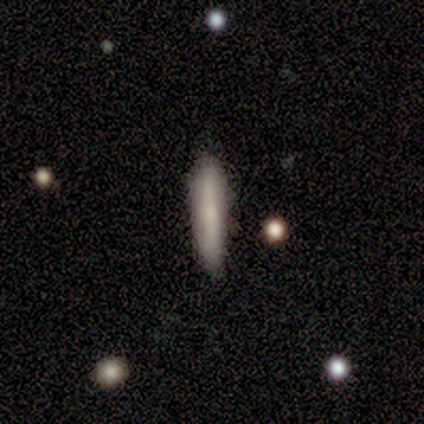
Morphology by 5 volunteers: Smooth or featured? 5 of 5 (100%) said smooth. How rounded? 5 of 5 (100%) said cigar-shaped. Merging? 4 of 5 (80%) said none.